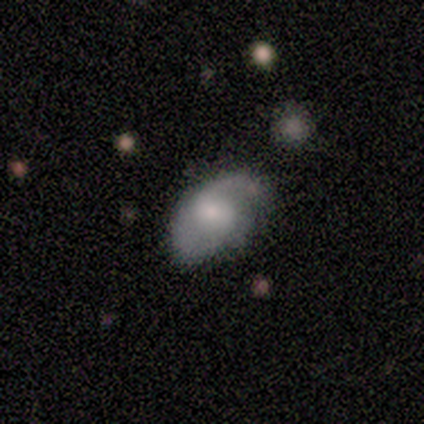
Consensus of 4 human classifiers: This is possibly a featured or disk galaxy (50%). It is clearly not viewed edge-on (100%). Bar: possibly weak (50%, tied with no). Spiral arm pattern: clearly yes (100%). Spiral arm count: possibly 1 (50%, tied with 2). Spiral winding: possibly tight (50%, tied with medium). Central bulge: possibly large (50%, tied with small). Merging: likely minor disturbance (67%).